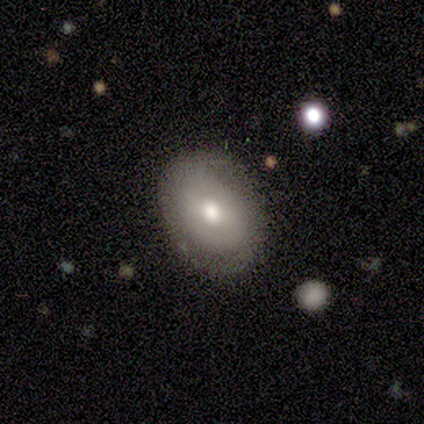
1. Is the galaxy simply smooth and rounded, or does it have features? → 60% featured or disk, 40% smooth, 0% star or artifact.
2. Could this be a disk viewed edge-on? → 100% no, 0% yes.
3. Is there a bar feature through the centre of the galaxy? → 67% no, 33% weak, 0% strong.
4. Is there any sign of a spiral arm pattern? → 100% yes, 0% no.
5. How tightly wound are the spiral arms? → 33% tight (tied), 33% medium (tied), 33% loose (tied).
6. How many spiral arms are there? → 100% 2, 0% 1, 0% 3, 0% 4, 0% more than 4, 0% can't tell.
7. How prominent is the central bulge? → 100% moderate, 0% dominant, 0% large, 0% small, 0% none.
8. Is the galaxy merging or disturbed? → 100% none, 0% minor disturbance, 0% major disturbance, 0% merger.